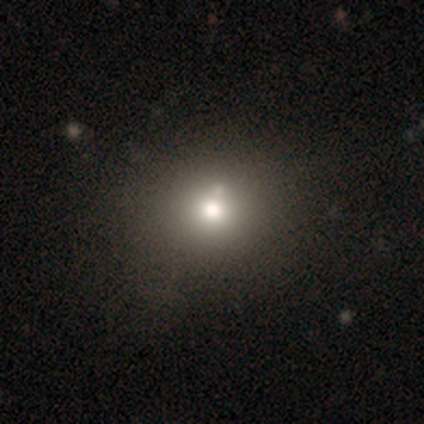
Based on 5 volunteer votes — smooth-or-featured: smooth: 60% | star or artifact: 40% | featured or disk: 0%
  how-rounded: round: 100% | in between: 0% | cigar-shaped: 0%
  merging: none: 100% | minor disturbance: 0% | major disturbance: 0% | merger: 0%